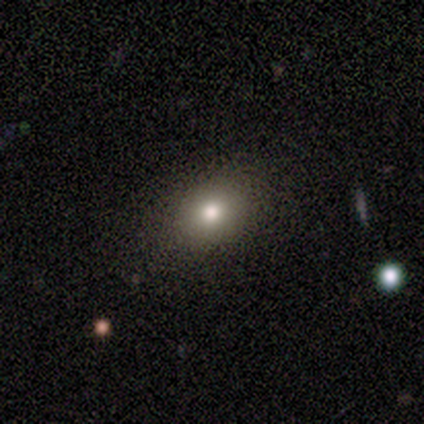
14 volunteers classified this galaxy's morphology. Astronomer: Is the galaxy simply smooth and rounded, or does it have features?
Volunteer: smooth — 79%.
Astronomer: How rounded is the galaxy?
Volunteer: round — 55% (runner-up: in between, 45%).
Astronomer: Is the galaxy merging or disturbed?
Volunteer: none — 83%.